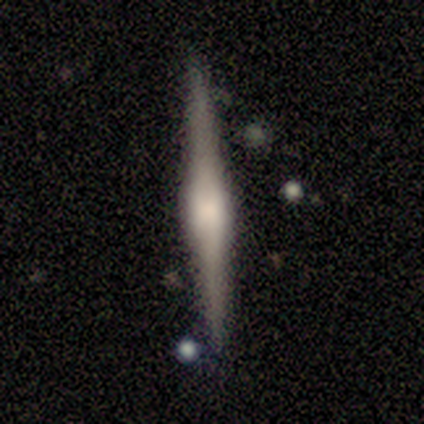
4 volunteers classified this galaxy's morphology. This appears to be a featured or disk galaxy (75%) viewed edge-on (100%) with a rounded central bulge (100%). Merging: none (100%).